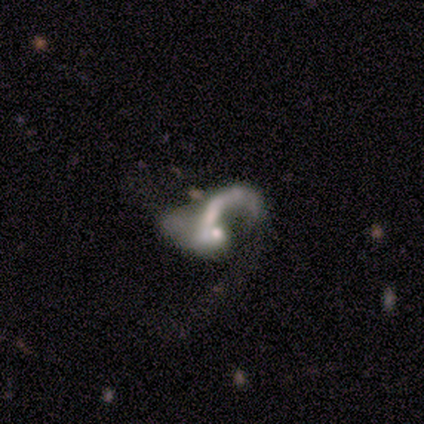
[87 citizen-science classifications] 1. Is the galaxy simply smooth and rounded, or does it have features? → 80% featured or disk, 10% smooth, 9% star or artifact.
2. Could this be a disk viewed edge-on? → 93% no, 7% yes.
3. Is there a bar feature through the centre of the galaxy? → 88% no, 8% weak, 5% strong.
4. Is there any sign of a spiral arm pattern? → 68% yes, 32% no.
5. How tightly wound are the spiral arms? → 89% loose, 9% medium, 2% tight.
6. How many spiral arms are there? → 89% 1, 9% can't tell, 2% 2, 0% 3, 0% 4, 0% more than 4.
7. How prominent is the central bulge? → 48% moderate, 37% small, 14% none, 2% large, 0% dominant.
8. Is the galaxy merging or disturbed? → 48% major disturbance, 29% merger, 14% minor disturbance, 9% none.